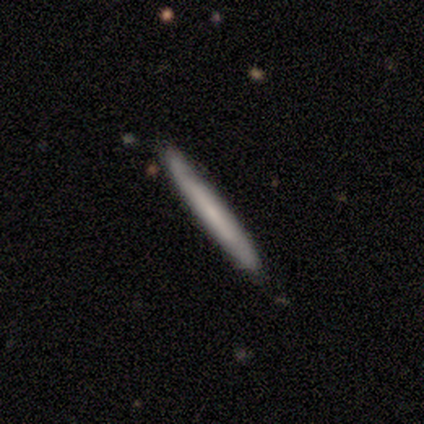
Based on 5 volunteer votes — Smooth or featured?
  - smooth: 80% *
  - featured or disk: 20%
  - star or artifact: 0%
How rounded?
  - cigar-shaped: 100% *
  - round: 0%
  - in between: 0%
Merging?
  - none: 100% *
  - minor disturbance: 0%
  - major disturbance: 0%
  - merger: 0%